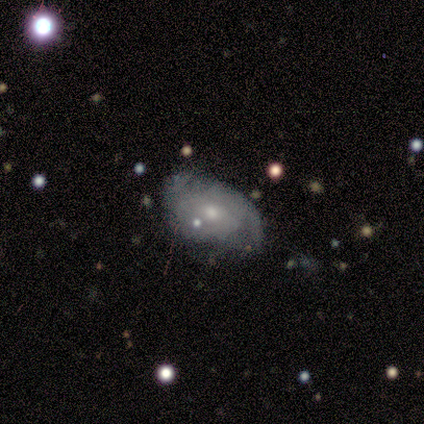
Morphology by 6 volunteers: This appears to be a smooth galaxy with no disk features (50%, tied with featured or disk) that is in between round and cigar-shaped (100%). Merging: none (50%).